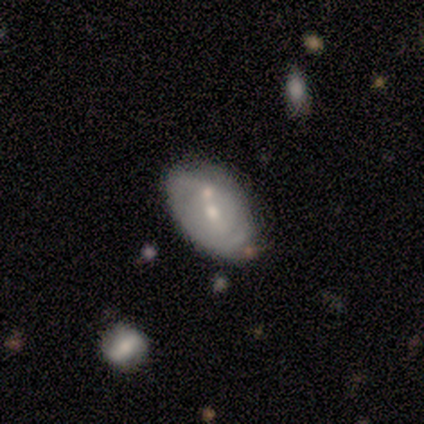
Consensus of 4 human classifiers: A smooth galaxy with no disk features (50%, tied with featured or disk) that is in between round and cigar-shaped (100%). Merging: none (50%).